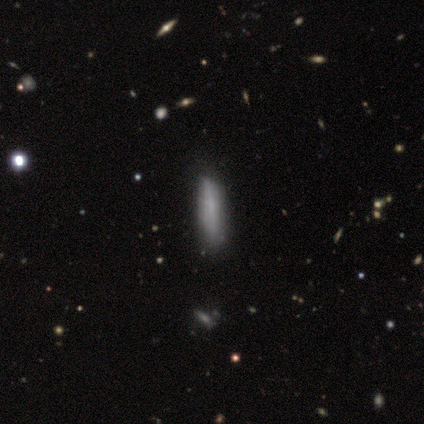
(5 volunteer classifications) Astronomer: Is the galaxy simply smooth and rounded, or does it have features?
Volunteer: featured or disk — 60% (runner-up: smooth, 40%).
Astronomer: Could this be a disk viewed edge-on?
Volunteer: no — 67%.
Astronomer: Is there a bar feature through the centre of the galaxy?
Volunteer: weak — 100%.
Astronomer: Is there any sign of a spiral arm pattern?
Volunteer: yes — 50%, tied with no at 50%.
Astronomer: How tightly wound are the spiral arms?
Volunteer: tight — 100%.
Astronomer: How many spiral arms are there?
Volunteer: can't tell — 100%.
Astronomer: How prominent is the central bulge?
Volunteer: small — 100%.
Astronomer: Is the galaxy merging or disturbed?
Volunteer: none — 80%.